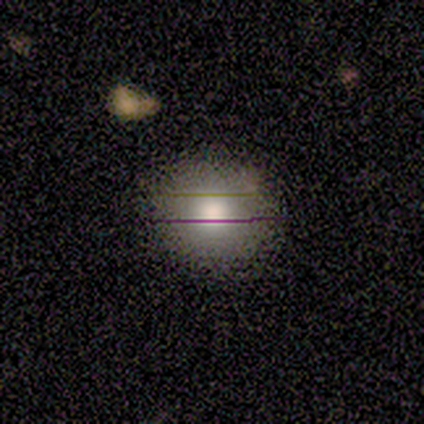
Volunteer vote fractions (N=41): Smooth or featured? 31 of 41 (76%) said smooth. How rounded? 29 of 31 (94%) said round. Merging? 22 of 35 (63%) said none.